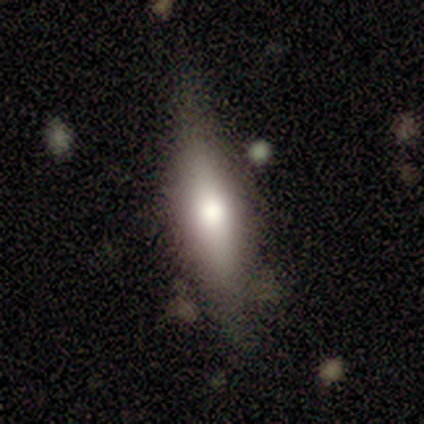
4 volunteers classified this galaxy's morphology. Smooth or featured: smooth — 100%
How rounded: cigar-shaped — 75% (in between — 25%)
Merging: none — 75% (minor disturbance — 25%)